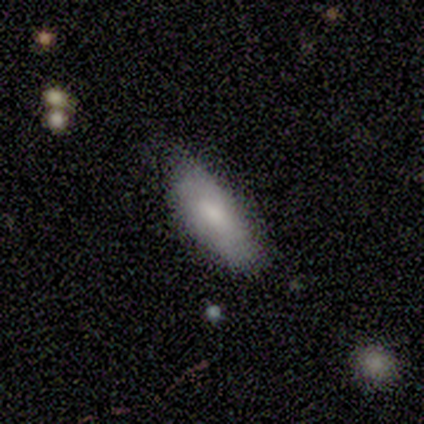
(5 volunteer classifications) Volunteers were most divided on "how rounded": in between: 75%, cigar-shaped: 25%, round: 0%. More confident: merging — none (100%); smooth or featured — smooth (80%).